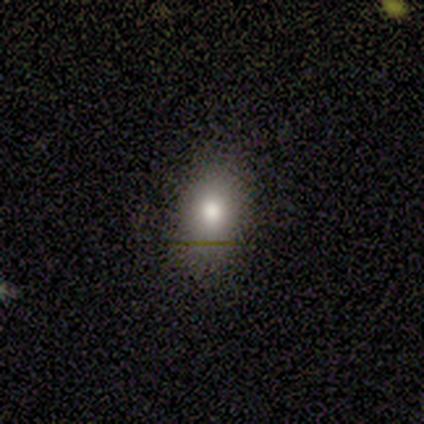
This appears to be a smooth galaxy with no disk features (80%) that is in between round and cigar-shaped (75%). Merging: none (80%).